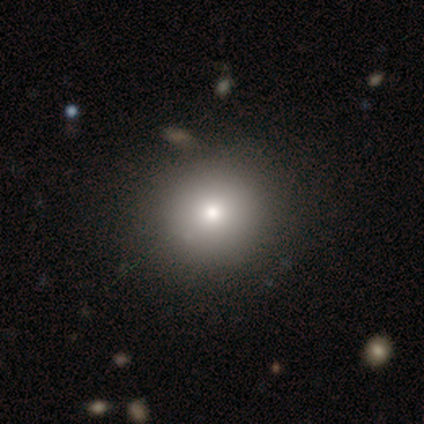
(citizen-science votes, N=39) Overall: smooth (72%). How rounded: round (93%). Merging: none (62%).